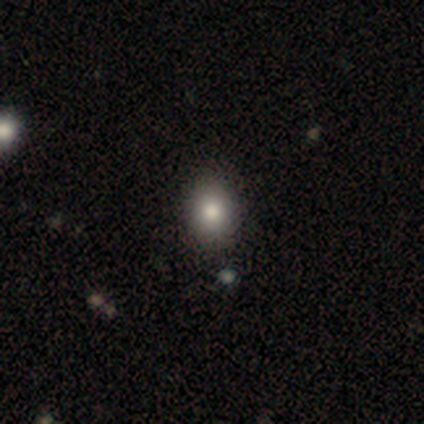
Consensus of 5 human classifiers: Volunteers were most divided on "how rounded": in between: 67%, round: 33%, cigar-shaped: 0%. More confident: merging — none (100%); smooth or featured — smooth (60%).